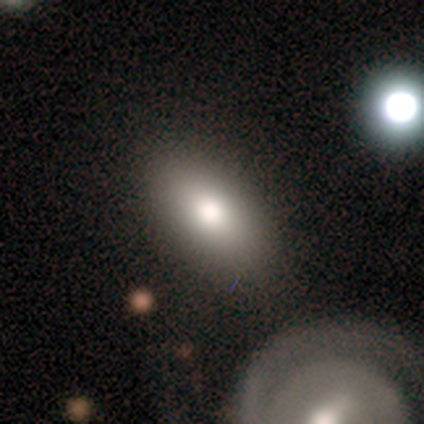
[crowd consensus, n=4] smooth_or_featured: smooth (p=1.00)
how_rounded: in between (p=1.00)
merging: none (p=0.75) [alt: minor disturbance p=0.25]